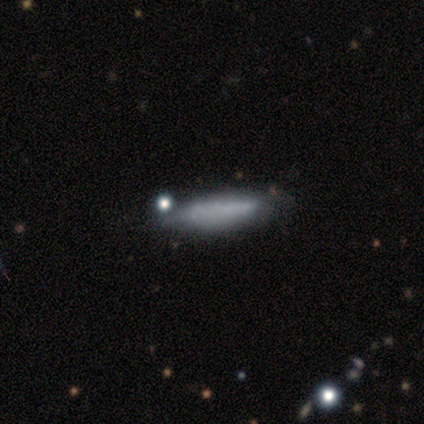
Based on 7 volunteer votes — smooth 71%, featured or disk 14%, star or artifact 14%. Down the decision tree: how rounded — cigar-shaped (100%); merging — none (67%).